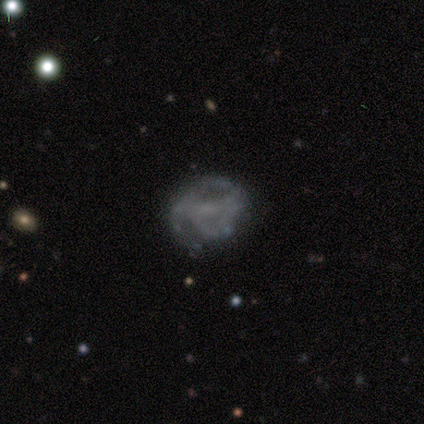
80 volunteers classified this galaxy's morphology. smooth-or-featured: featured or disk: 65% | smooth: 25% | star or artifact: 10%
  disk-edge-on: no: 98% | yes: 2%
    bar: no: 49% | weak: 39% | strong: 12%
    has-spiral-arms: yes: 53% | no: 47%
      spiral-winding: medium: 44% | tight: 33% | loose: 22%
      spiral-arm-count: 2: 33% | can't tell: 26% | 3: 22% | 1: 15% | 4: 4% | more than 4: 0%
    bulge-size: none: 67% | small: 20% | moderate: 10% | dominant: 2% | large: 2%
  merging: none: 62% | minor disturbance: 18% | major disturbance: 14% | merger: 6%